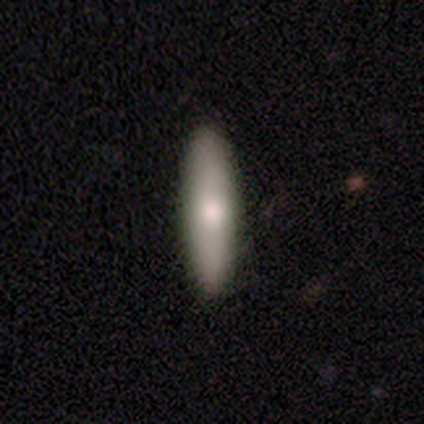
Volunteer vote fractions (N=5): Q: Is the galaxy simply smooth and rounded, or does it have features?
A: smooth — 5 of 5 (100%).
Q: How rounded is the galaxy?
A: cigar-shaped — 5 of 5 (100%).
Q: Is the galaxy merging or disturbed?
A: none — 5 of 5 (100%).